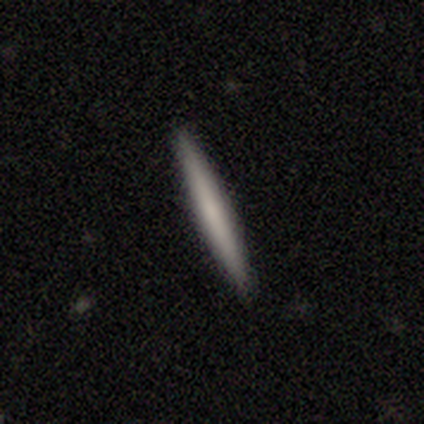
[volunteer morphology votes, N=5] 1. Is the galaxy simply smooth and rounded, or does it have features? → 80% smooth, 20% featured or disk, 0% star or artifact.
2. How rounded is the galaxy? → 100% cigar-shaped, 0% round, 0% in between.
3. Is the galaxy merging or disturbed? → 100% none, 0% minor disturbance, 0% major disturbance, 0% merger.